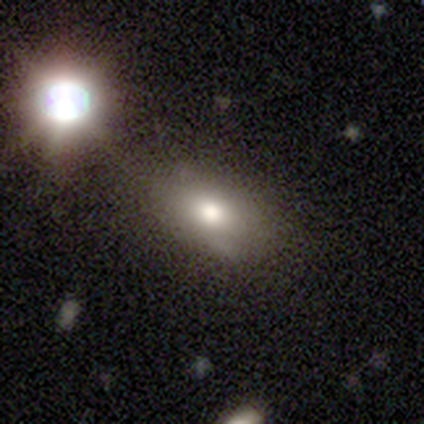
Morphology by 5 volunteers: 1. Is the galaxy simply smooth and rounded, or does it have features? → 60% star or artifact, 40% smooth, 0% featured or disk.